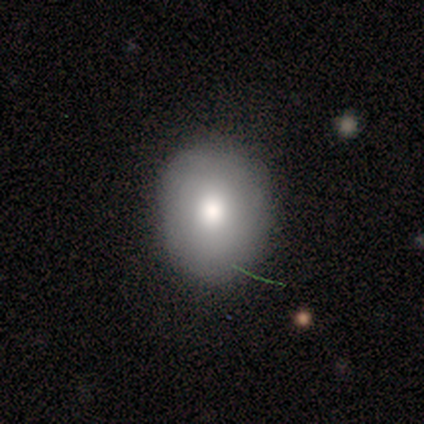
This is possibly a smooth galaxy (50%). How rounded: possibly round (50%, tied with in between). Merging: clearly none (100%).